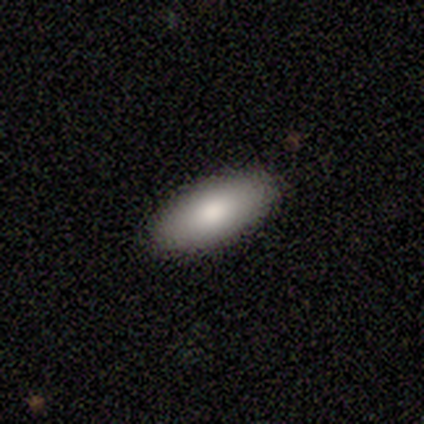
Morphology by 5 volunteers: Smooth or featured: smooth — 100%
How rounded: in between — 100%
Merging: none — 100%